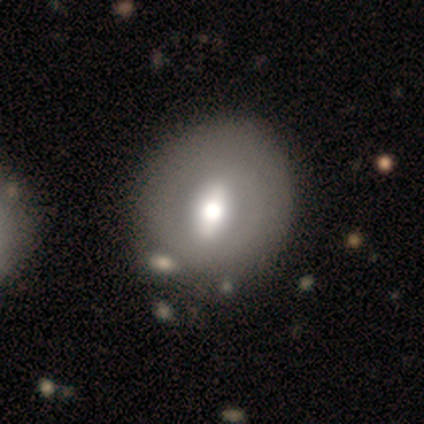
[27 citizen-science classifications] smooth-or-featured: smooth: 52% | featured or disk: 44% | star or artifact: 4%
  how-rounded: round: 71% | in between: 29% | cigar-shaped: 0%
  merging: none: 73% | minor disturbance: 19% | major disturbance: 8% | merger: 0%